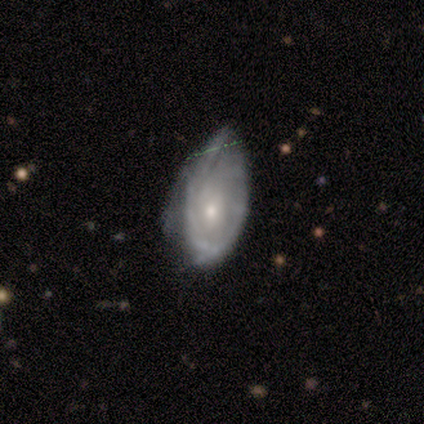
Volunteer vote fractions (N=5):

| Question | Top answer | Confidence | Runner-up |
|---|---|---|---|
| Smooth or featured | featured or disk | 80% | star or artifact (20%) |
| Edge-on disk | no | 100% | — |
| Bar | no | 75% | weak (25%) |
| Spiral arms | yes | 75% | no (25%) |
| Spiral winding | tight | 67% | medium (33%) |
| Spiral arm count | can't tell | 67% | 3 (33%) |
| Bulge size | moderate | 75% | small (25%) |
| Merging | minor disturbance | 50% | tied: major disturbance (50%) |